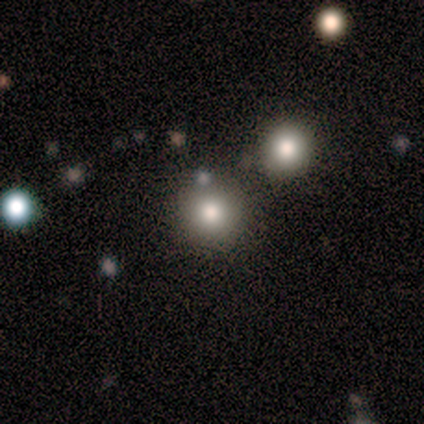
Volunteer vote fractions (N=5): Smooth or featured? smooth (60%)
How rounded? round (100%)
Merging? none (100%)